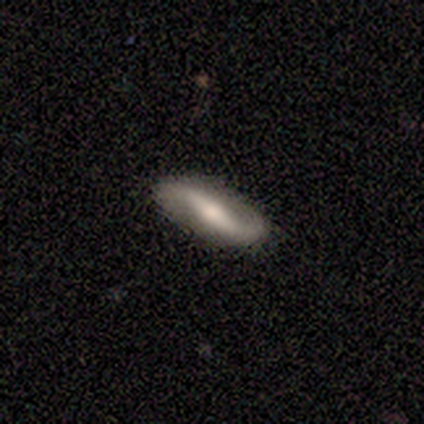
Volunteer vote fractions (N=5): smooth-or-featured: featured or disk: 80% | smooth: 20% | star or artifact: 0%
  disk-edge-on: no: 100% | yes: 0%
    bar: strong: 75% | weak: 25% | no: 0%
    has-spiral-arms: yes: 100% | no: 0%
      spiral-winding: loose: 100% | tight: 0% | medium: 0%
      spiral-arm-count: 2: 100% | 1: 0% | 3: 0% | 4: 0% | more than 4: 0% | can't tell: 0%
    bulge-size: moderate: 75% | small: 25% | dominant: 0% | large: 0% | none: 0%
  merging: none: 80% | minor disturbance: 20% | major disturbance: 0% | merger: 0%